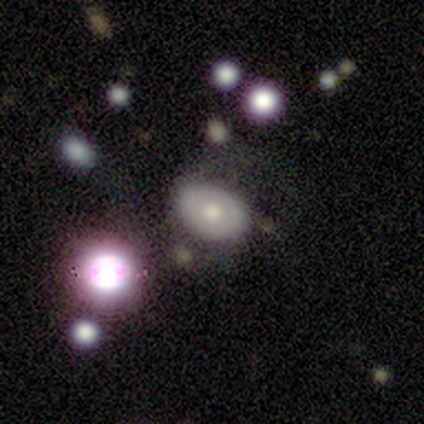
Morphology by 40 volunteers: type=smooth (62%); roundness=in between (88%); merging=none (51%).